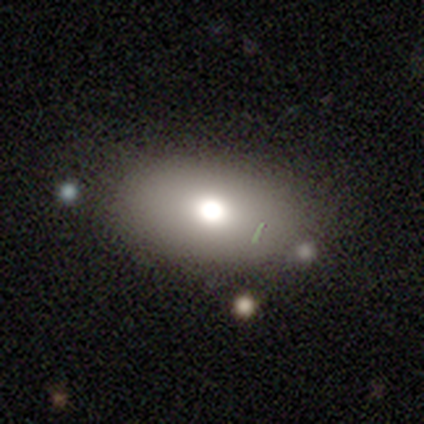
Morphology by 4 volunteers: smooth_or_featured: smooth (p=1.00)
how_rounded: in between (p=1.00)
merging: none (p=0.75) [alt: minor disturbance p=0.25]